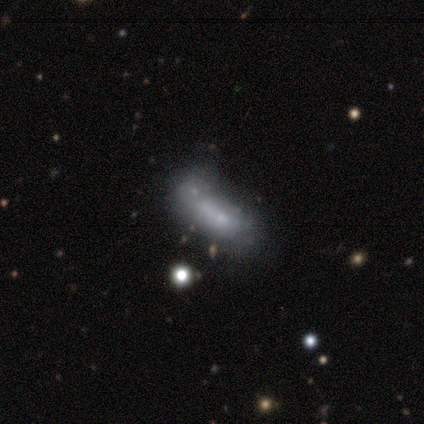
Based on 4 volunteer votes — Overall: smooth (50%; featured or disk 25%). How rounded: in between (50%, tied with cigar-shaped). Merging: none (33%, tied with minor disturbance and merger).